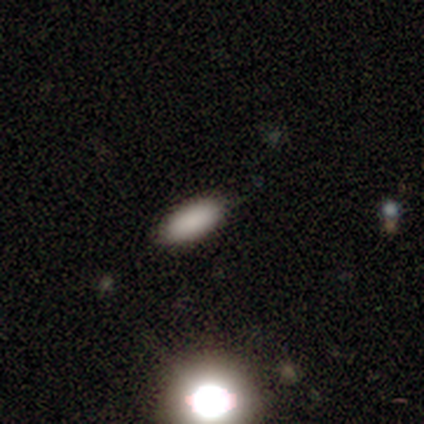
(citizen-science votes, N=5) Smooth or featured? smooth (100%)
How rounded? in between (100%)
Merging? none (100%)